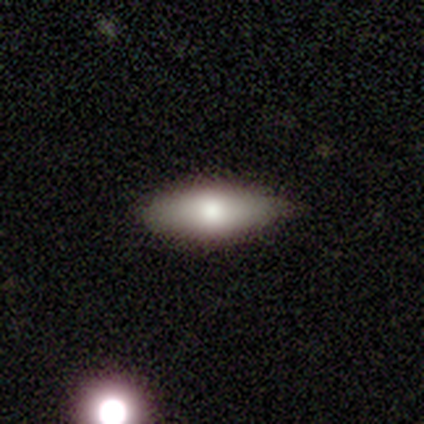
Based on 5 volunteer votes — Volunteers were most divided on "how rounded" (2-way tie): in between: 50%, cigar-shaped: 50%, round: 0%. More confident: smooth or featured — smooth (80%); merging — none (60%).